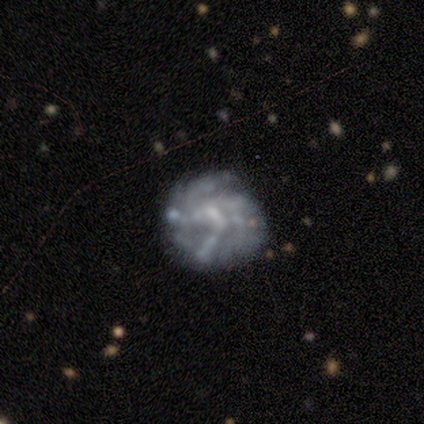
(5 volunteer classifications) Volunteers were most divided on "spiral winding" (3-way tie): tight: 33%, medium: 33%, loose: 33%. More confident: edge-on disk — no (100%); spiral arm count — can't tell (100%); smooth or featured — featured or disk (80%); bar — weak (75%); spiral arms — yes (75%); merging — none (60%); bulge size — none (50%).